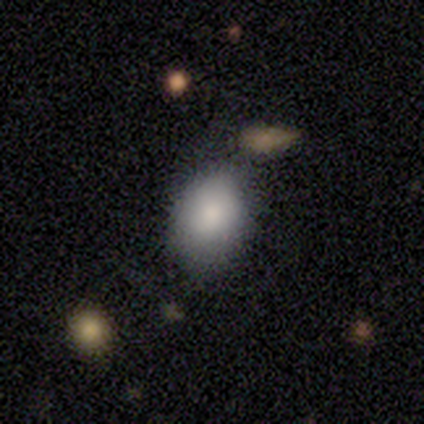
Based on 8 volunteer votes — This appears to be a smooth galaxy with no disk features (100%) that is in between round and cigar-shaped (75%). Merging: none (88%).